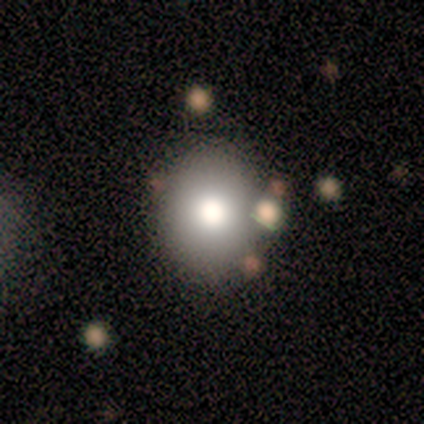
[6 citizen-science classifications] Q: Smooth or featured?
A: smooth (83%); runner-up: star or artifact (17%)
Q: How rounded?
A: round (60%); runner-up: in between (40%)
Q: Merging?
A: none (100%)